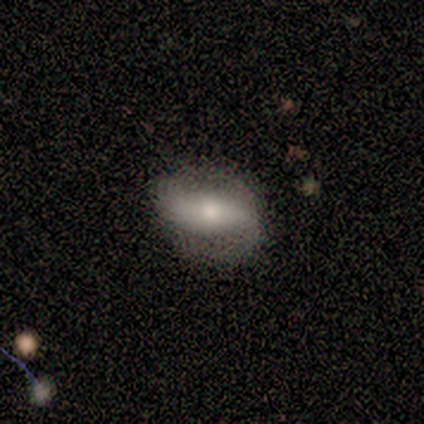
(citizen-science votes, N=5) Smooth or featured? featured or disk (60%)
Edge-on disk? no (100%)
Bar? strong (33%, tied with weak and no)
Spiral arms? yes (100%)
Spiral winding? medium (67%)
Spiral arm count? 2 (100%)
Bulge size? small (67%)
Merging? none (80%)